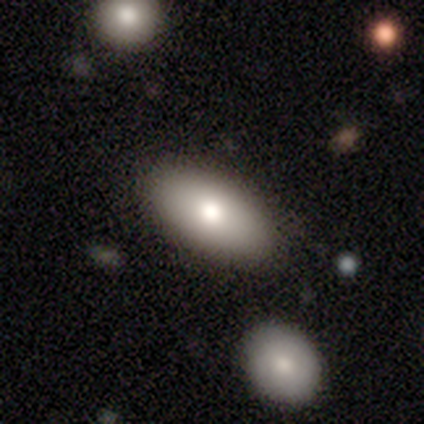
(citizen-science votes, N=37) This is likely a smooth galaxy (73%). How rounded: clearly in between (93%). Merging: clearly none (88%).